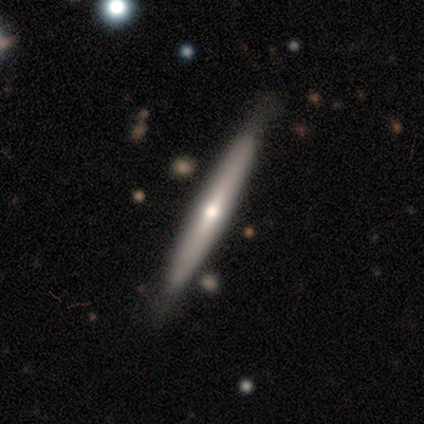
This appears to be a featured or disk galaxy (60%) viewed edge-on (100%) with a rounded central bulge (100%). Merging: none (100%).